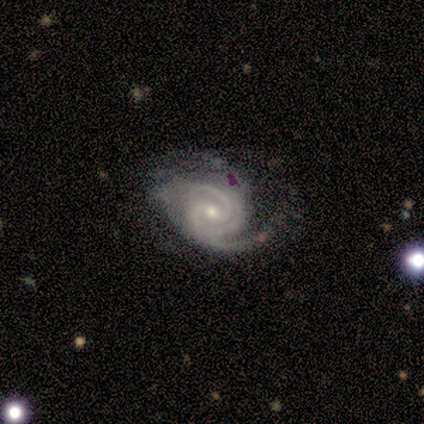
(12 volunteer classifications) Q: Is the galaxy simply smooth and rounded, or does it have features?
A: featured or disk — 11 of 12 (92%).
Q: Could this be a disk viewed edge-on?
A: no — 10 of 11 (91%).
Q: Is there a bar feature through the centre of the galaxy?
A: weak — 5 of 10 (50%).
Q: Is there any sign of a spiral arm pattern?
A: yes — 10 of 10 (100%).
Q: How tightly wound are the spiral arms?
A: tight — 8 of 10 (80%).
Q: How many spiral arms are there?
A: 3 — 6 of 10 (60%).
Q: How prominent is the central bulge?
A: small — 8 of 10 (80%).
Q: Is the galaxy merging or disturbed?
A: none — 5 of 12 (42%).